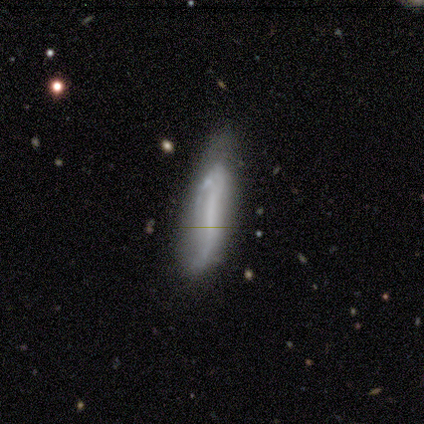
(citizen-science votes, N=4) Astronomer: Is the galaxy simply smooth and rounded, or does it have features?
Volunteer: smooth — 75%.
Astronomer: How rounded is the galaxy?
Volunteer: in between — 67%.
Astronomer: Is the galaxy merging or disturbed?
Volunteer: none — 75%.